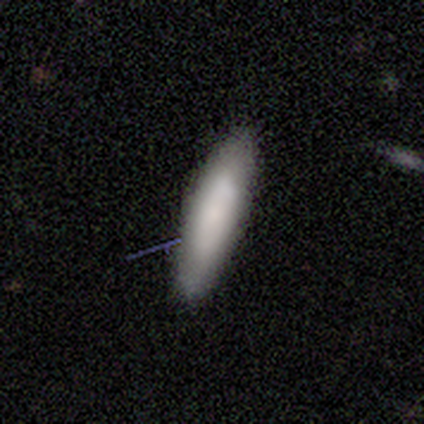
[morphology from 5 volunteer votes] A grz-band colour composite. It shows a smooth galaxy with no disk features (100%) that is cigar-shaped (60%). Merging: none (100%).